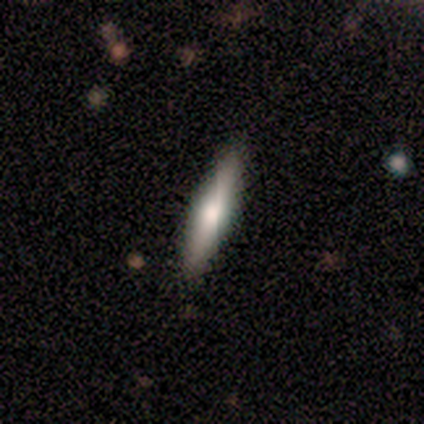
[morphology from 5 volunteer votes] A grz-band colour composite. It shows a featured or disk galaxy (80%) viewed edge-on (50%, tied with no) with a rounded central bulge (100%). Merging: none (100%).